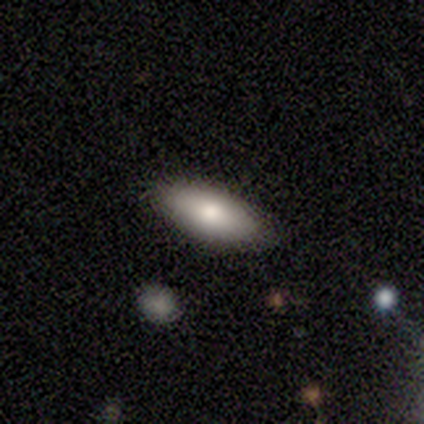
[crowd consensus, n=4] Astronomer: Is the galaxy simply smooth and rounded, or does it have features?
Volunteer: smooth — 100%.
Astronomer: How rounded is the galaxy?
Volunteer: in between — 100%.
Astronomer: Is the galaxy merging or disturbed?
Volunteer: none — 100%.